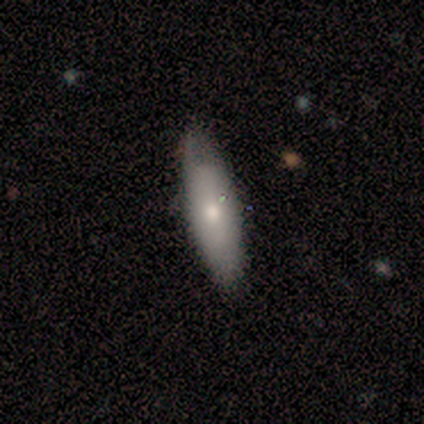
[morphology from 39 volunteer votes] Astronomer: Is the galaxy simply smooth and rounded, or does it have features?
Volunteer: smooth — 72%.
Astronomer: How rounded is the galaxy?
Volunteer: in between — 54% (runner-up: cigar-shaped, 46%).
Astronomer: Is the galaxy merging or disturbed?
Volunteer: none — 82%.